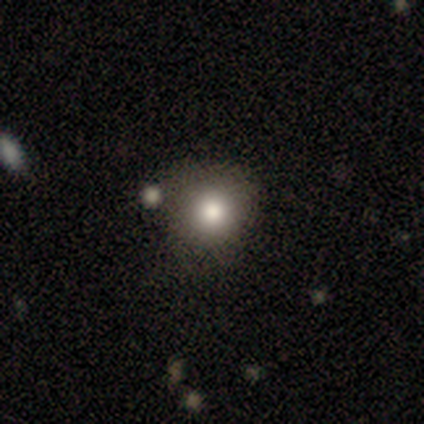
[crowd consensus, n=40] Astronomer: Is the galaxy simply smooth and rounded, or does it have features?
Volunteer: smooth — 70%.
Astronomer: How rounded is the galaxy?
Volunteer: round — 100%.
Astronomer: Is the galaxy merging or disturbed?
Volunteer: none — 73%.